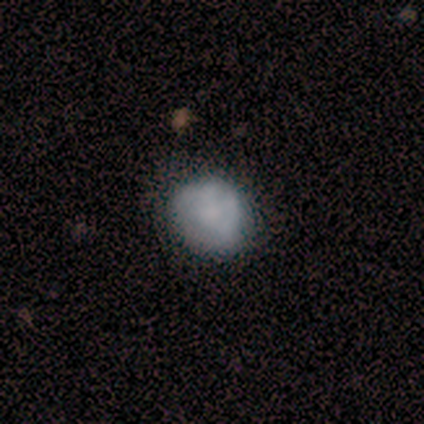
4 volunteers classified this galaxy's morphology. A smooth galaxy with no disk features (75%) that is round (100%). Merging: none (50%).